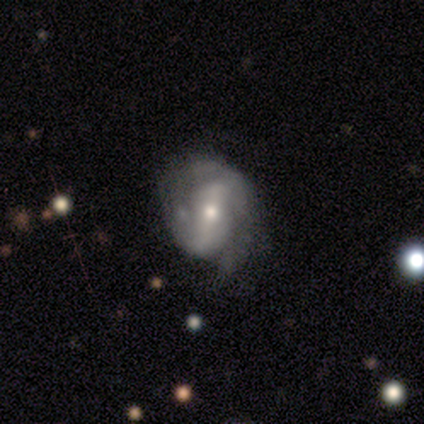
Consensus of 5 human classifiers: This appears to be a featured or disk galaxy (80%) with a weak bar (50%, tied with no), 2 (67%) tight (33%, tied with medium and loose) spiral arms (75%) and a small central bulge (75%). Merging: none (60%).